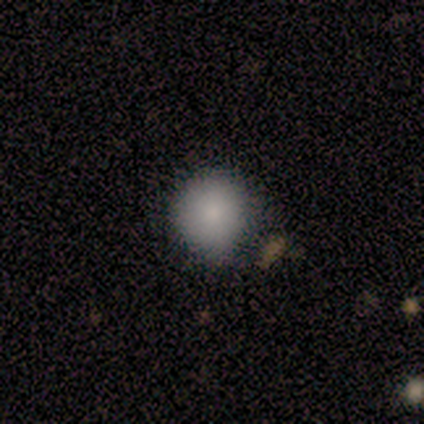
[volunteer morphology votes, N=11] A smooth galaxy with no disk features (91%) that is round (90%). Merging: none (64%).